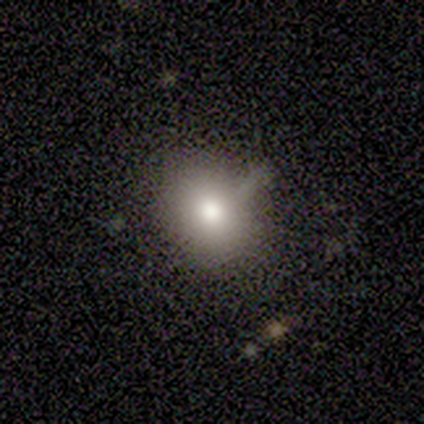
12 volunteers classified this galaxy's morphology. This appears to be a smooth galaxy with no disk features (83%) that is round (50%, tied with in between). Merging: none (100%).